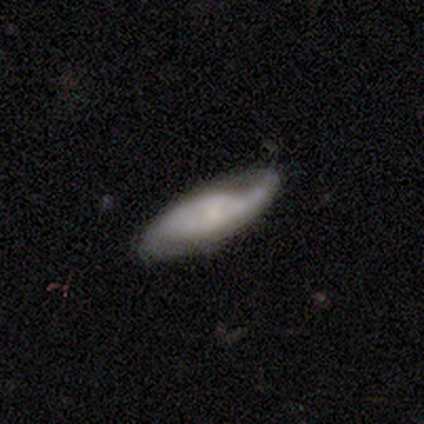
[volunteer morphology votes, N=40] Q: Smooth or featured?
A: featured or disk (62%); runner-up: smooth (32%)
Q: Edge-on disk?
A: no (76%); runner-up: yes (24%)
Q: Bar?
A: no (79%); runner-up: strong (11%)
Q: Spiral arms?
A: yes (68%); runner-up: no (32%)
Q: Spiral winding?
A: medium (54%); runner-up: loose (38%)
Q: Spiral arm count?
A: 2 (69%); runner-up: 1 (23%)
Q: Bulge size?
A: small (53%); runner-up: moderate (21%)
Q: Merging?
A: none (63%); runner-up: minor disturbance (26%)